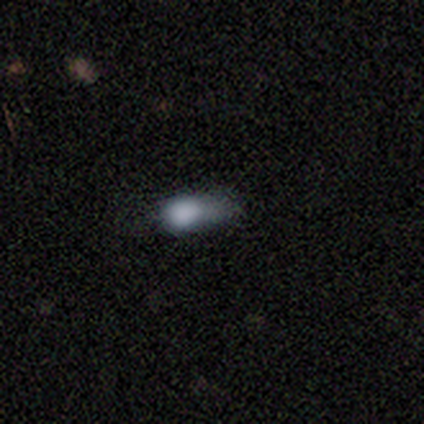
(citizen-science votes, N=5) Smooth or featured? smooth (80%)
How rounded? in between (50%)
Merging? major disturbance (40%, tied with merger)